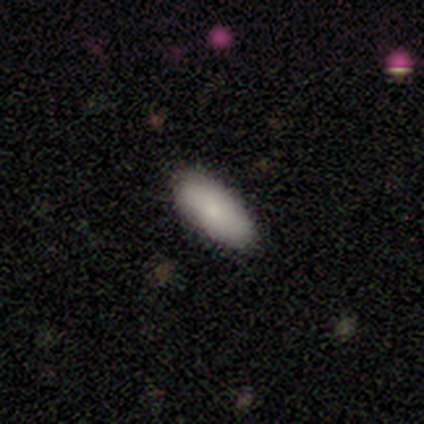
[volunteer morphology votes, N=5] This is clearly a smooth galaxy (80%). How rounded: clearly in between (100%). Merging: clearly none (100%).